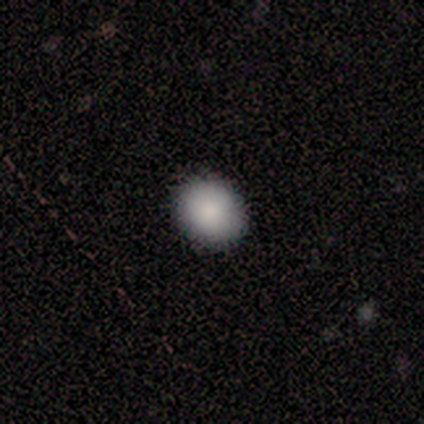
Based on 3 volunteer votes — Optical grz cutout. It shows a smooth galaxy with no disk features (100%) that is round (100%). Merging: none (100%).